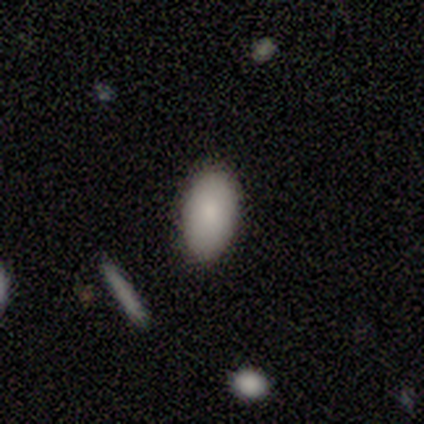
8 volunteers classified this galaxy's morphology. smooth 100%, featured or disk 0%, star or artifact 0%. Down the decision tree: how rounded — in between (100%); merging — none (75%).